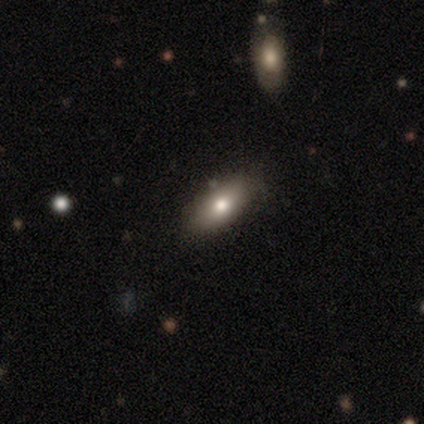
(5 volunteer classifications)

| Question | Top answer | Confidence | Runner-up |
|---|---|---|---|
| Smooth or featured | smooth | 80% | featured or disk (20%) |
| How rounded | in between | 75% | cigar-shaped (25%) |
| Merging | none | 100% | — |